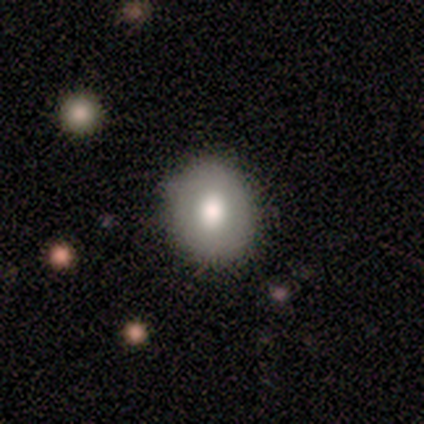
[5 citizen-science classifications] Smooth or featured: smooth — 80% (featured or disk — 20%)
How rounded: round — 50% (tied with in between — 50%)
Merging: none — 100%